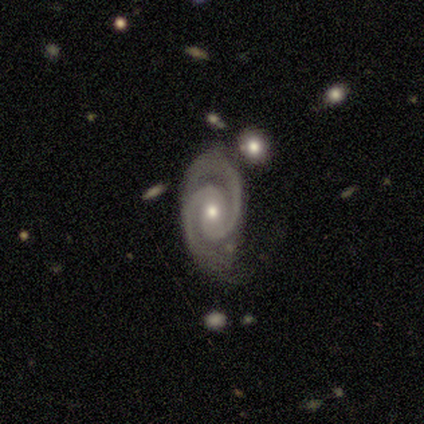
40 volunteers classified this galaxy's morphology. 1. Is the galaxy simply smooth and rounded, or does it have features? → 88% featured or disk, 8% star or artifact, 5% smooth.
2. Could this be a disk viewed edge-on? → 97% no, 3% yes.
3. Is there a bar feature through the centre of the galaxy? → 50% no, 35% weak, 15% strong.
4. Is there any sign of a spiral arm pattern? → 100% yes, 0% no.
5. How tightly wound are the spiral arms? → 74% tight, 24% medium, 3% loose.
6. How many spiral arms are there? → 97% 2, 3% can't tell, 0% 1, 0% 3, 0% 4, 0% more than 4.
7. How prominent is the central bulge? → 53% small, 47% moderate, 0% dominant, 0% large, 0% none.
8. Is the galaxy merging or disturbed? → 62% none, 27% minor disturbance, 11% major disturbance, 0% merger.